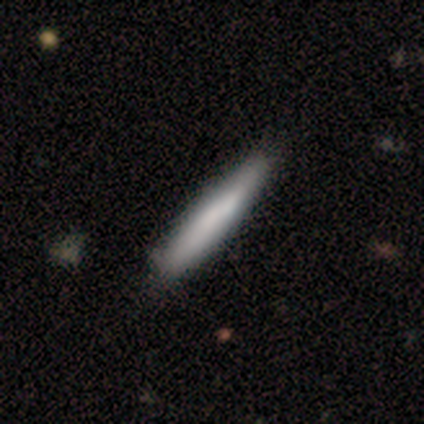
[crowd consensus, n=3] Smooth or featured? smooth (67%)
How rounded? in between (50%, tied with cigar-shaped)
Merging? none (100%)